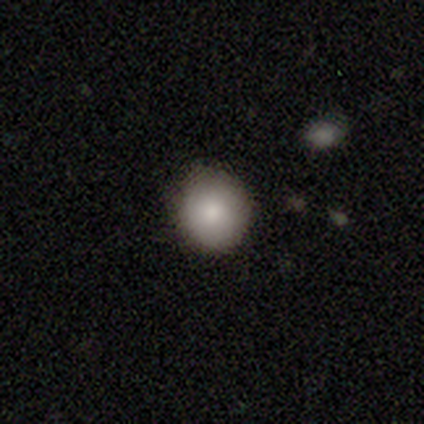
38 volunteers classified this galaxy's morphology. Smooth or featured? smooth (84%)
How rounded? round (88%)
Merging? none (89%)